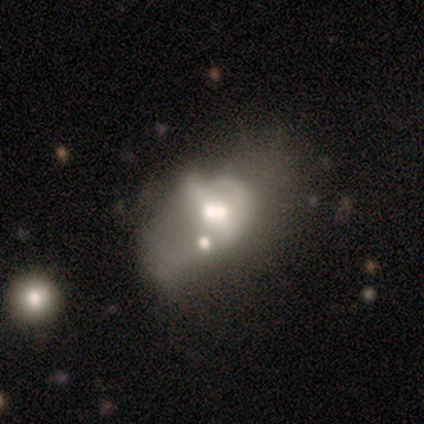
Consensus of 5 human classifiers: Morphology: type=featured or disk (60%); edge-on=no (100%); bar=strong (33%, tied with weak and no); spiral arms=yes (67%); winding=tight (50%, tied with medium); arm count=can't tell (100%); bulge=large (33%, tied with moderate and small); merging=minor disturbance (40%, tied with merger).